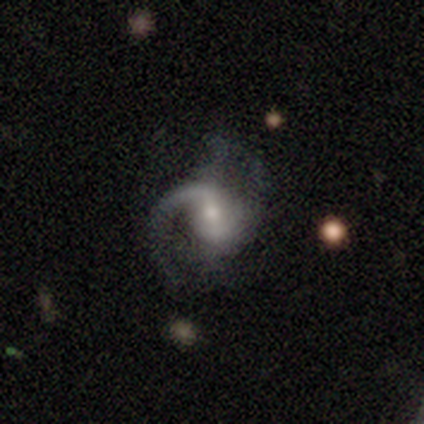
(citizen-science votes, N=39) A featured or disk galaxy (90%) with a weak bar (61%), 1 (48%) medium (45%) spiral arms (100%) and a moderate central bulge (48%).

Vote fractions:
- Smooth or featured? featured or disk: 90% / smooth: 8% / star or artifact: 3%
- Edge-on disk? no: 94% / yes: 6%
- Bar? weak: 61% / no: 30% / strong: 9%
- Spiral arms? yes: 100% / no: 0%
- Spiral winding? medium: 45% / loose: 42% / tight: 12%
- Spiral arm count? 1: 48% / 2: 36% / 3: 6% / can't tell: 6% / 4: 3% / more than 4: 0%
- Bulge size? moderate: 48% / small: 42% / none: 6% / large: 3% / dominant: 0%
- Merging? none: 53% / minor disturbance: 24% / major disturbance: 21% / merger: 3%